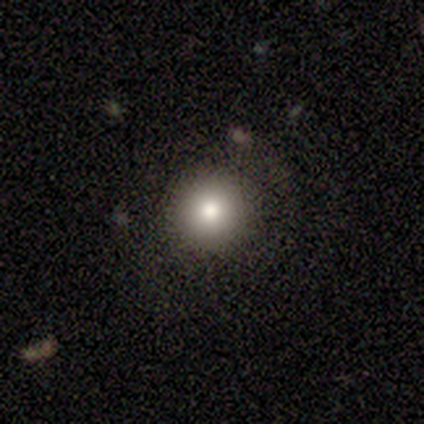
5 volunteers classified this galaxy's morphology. smooth-or-featured: smooth: 80% | star or artifact: 20% | featured or disk: 0%
  how-rounded: round: 100% | in between: 0% | cigar-shaped: 0%
  merging: none: 100% | minor disturbance: 0% | major disturbance: 0% | merger: 0%